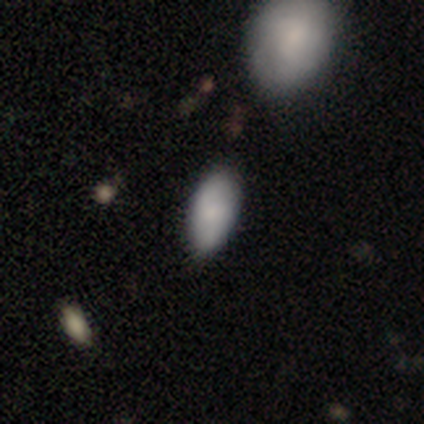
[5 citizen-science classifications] A smooth galaxy with no disk features (60%) that is in between round and cigar-shaped (100%).

Vote fractions:
- Smooth or featured? smooth: 60% / featured or disk: 40% / star or artifact: 0%
- How rounded? in between: 100% / round: 0% / cigar-shaped: 0%
- Merging? none: 100% / minor disturbance: 0% / major disturbance: 0% / merger: 0%